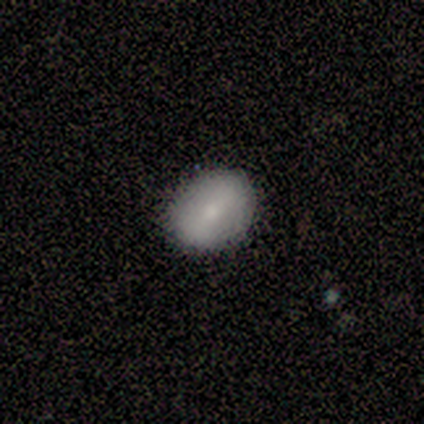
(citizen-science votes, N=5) Volunteers were most divided on "smooth or featured": smooth: 80%, featured or disk: 20%, star or artifact: 0%. More confident: how rounded — in between (100%); merging — none (100%).